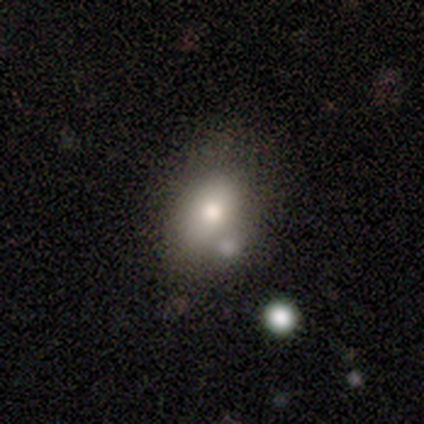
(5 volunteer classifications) smooth 100%, featured or disk 0%, star or artifact 0%. Down the decision tree: how rounded — in between (80%); merging — none (60%).